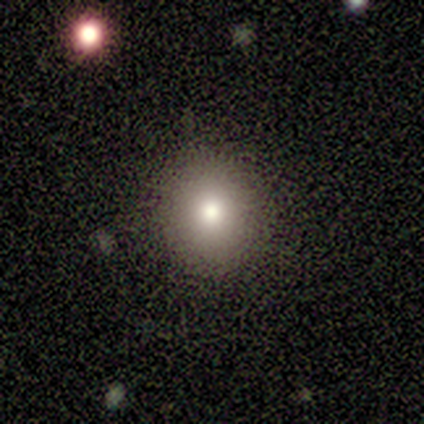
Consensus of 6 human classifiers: A smooth galaxy with no disk features (100%) that is round (83%).

Vote fractions:
- Smooth or featured? smooth: 100% / featured or disk: 0% / star or artifact: 0%
- How rounded? round: 83% / in between: 17% / cigar-shaped: 0%
- Merging? none: 67% / minor disturbance: 33% / major disturbance: 0% / merger: 0%